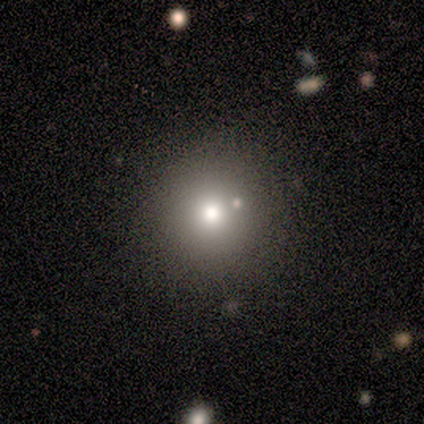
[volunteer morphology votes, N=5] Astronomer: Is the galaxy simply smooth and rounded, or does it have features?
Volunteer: smooth — 40%, tied with star or artifact at 40%.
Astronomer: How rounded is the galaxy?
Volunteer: round — 100%.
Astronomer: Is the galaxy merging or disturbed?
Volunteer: none — 100%.